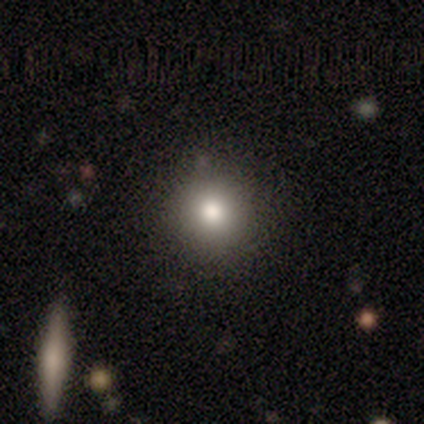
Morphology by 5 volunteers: Overall: smooth (80%). How rounded: round (100%). Merging: none (80%).